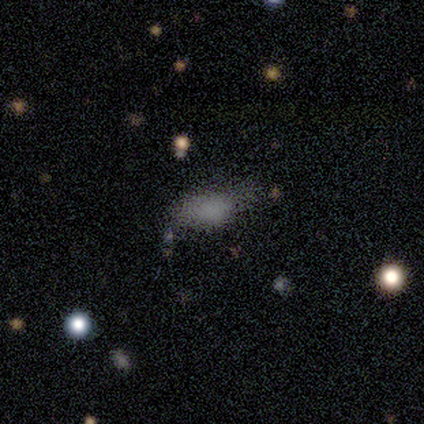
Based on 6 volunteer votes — A smooth galaxy with no disk features (83%) that is in between round and cigar-shaped (80%).

Vote fractions:
- Smooth or featured? smooth: 83% / featured or disk: 17% / star or artifact: 0%
- How rounded? in between: 80% / round: 20% / cigar-shaped: 0%
- Merging? none: 50% / major disturbance: 33% / minor disturbance: 17% / merger: 0%